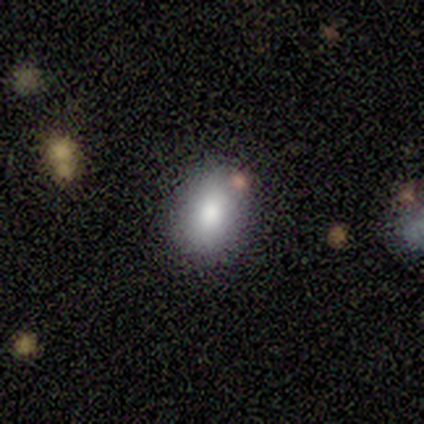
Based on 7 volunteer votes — Morphology: type=smooth (71%); roundness=in between (80%); merging=none (100%).